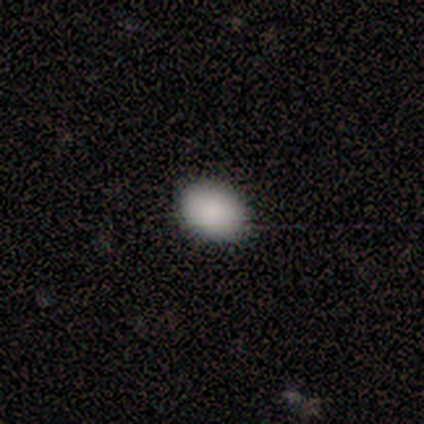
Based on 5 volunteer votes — A smooth galaxy with no disk features (100%) that is in between round and cigar-shaped (60%).

Vote fractions:
- Smooth or featured? smooth: 100% / featured or disk: 0% / star or artifact: 0%
- How rounded? in between: 60% / round: 40% / cigar-shaped: 0%
- Merging? none: 100% / minor disturbance: 0% / major disturbance: 0% / merger: 0%